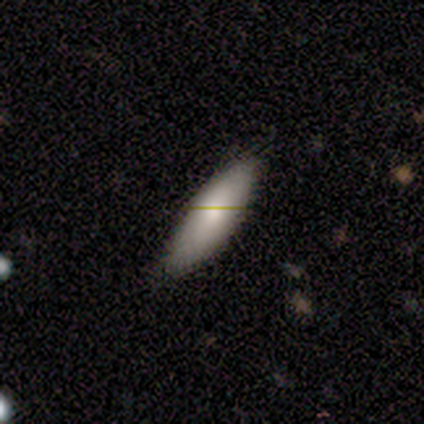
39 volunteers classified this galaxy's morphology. Smooth or featured?
  - smooth: 62% *
  - featured or disk: 21%
  - star or artifact: 18%
How rounded?
  - in between: 67% *
  - cigar-shaped: 33%
  - round: 0%
Merging?
  - none: 81% *
  - minor disturbance: 16%
  - major disturbance: 3%
  - merger: 0%